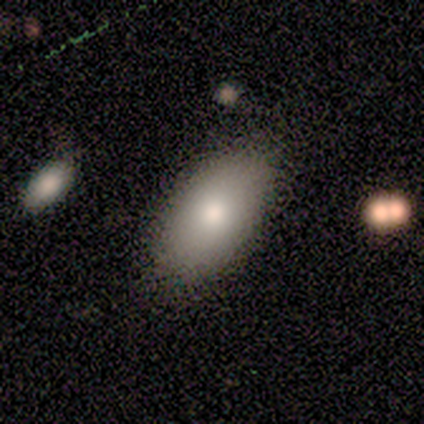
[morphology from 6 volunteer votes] featured or disk 50%, smooth 33%, star or artifact 17%. Down the decision tree: edge-on disk — no (100%); bar — no (100%); spiral arms — no (100%); bulge size — moderate (100%); merging — none (40%, tied with minor disturbance).